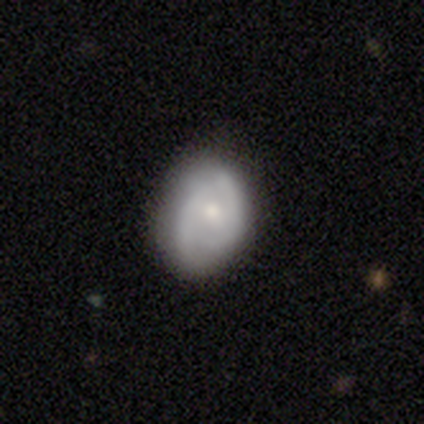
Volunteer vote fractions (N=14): featured or disk 71%, smooth 29%, star or artifact 0%. Down the decision tree: edge-on disk — no (100%); bar — no (70%); spiral arms — yes (80%); spiral arm count — 2 (75%); spiral winding — medium (62%); bulge size — small (90%); merging — none (64%).